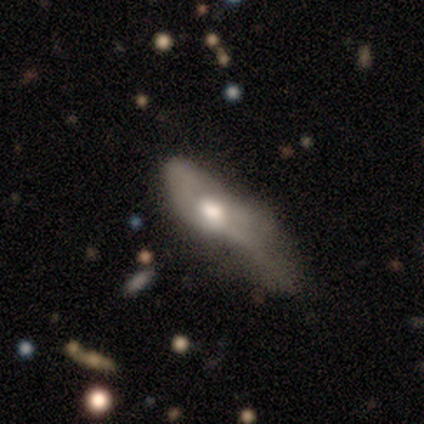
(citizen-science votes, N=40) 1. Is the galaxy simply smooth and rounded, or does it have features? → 62% featured or disk, 30% smooth, 8% star or artifact.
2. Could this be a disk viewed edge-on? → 84% no, 16% yes.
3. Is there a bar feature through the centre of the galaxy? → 76% no, 14% weak, 10% strong.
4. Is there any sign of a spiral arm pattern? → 71% no, 29% yes.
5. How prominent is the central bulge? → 52% moderate, 43% large, 5% small, 0% dominant, 0% none.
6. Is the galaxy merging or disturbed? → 68% major disturbance, 19% minor disturbance, 8% none, 5% merger.